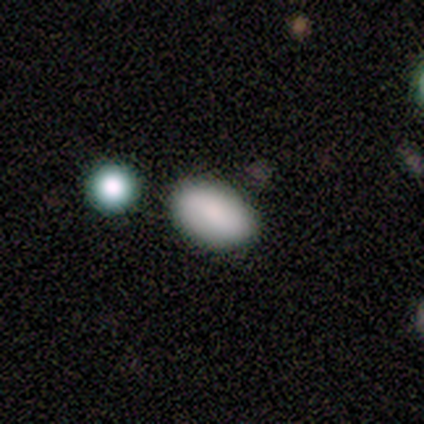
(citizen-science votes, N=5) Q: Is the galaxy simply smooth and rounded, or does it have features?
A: smooth — 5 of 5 (100%).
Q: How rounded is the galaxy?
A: in between — 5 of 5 (100%).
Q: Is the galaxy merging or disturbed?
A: none — 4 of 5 (80%).